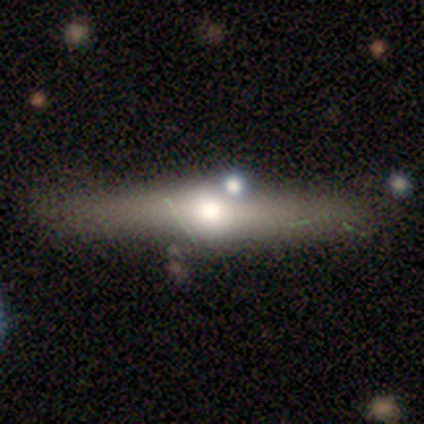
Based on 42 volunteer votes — Q: Smooth or featured?
A: featured or disk (76%); runner-up: smooth (17%)
Q: Edge-on disk?
A: yes (100%)
Q: Edge-on bulge?
A: rounded (100%)
Q: Merging?
A: none (69%); runner-up: minor disturbance (18%)